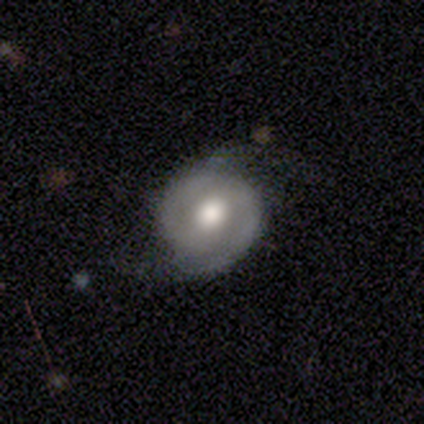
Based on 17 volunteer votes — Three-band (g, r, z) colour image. It shows a featured or disk galaxy (59%) with a weak bar (50%), 2 (100%) tight (57%) spiral arms (88%) and a moderate central bulge (50%). Merging: none (67%).